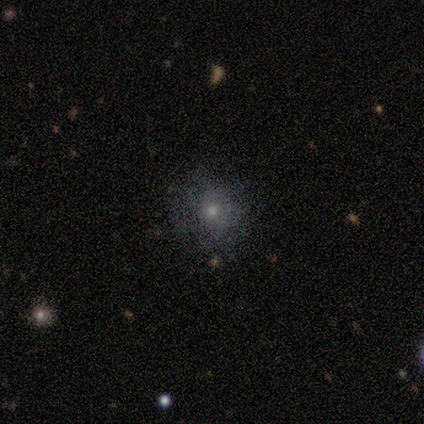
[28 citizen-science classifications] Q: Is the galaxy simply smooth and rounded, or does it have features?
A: smooth — 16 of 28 (57%).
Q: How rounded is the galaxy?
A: round — 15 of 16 (94%).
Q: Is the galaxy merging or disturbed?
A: none — 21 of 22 (95%).